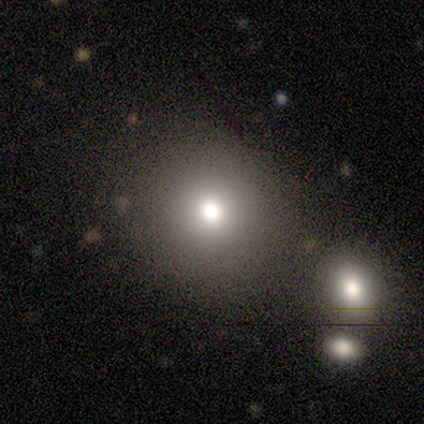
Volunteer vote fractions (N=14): This is likely a smooth galaxy (79%). How rounded: clearly round (91%). Merging: clearly none (92%).